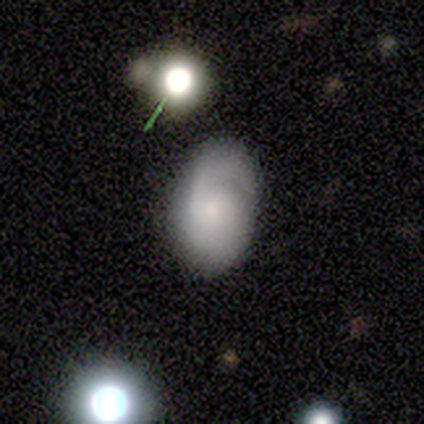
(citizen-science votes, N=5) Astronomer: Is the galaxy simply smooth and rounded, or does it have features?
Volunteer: smooth — 80%.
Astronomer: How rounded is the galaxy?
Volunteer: in between — 75%.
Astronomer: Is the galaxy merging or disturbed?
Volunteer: none — 60% (runner-up: minor disturbance, 40%).